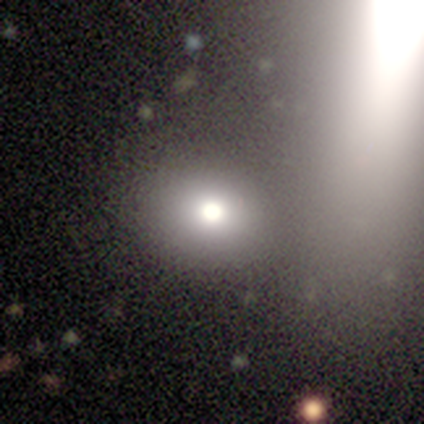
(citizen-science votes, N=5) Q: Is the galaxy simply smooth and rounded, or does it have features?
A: star or artifact — 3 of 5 (60%).